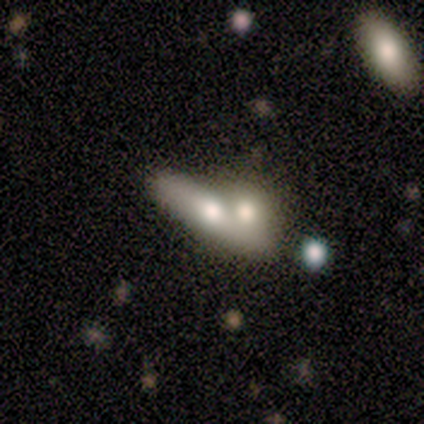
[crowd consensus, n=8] Smooth or featured?
  - smooth: 88% *
  - featured or disk: 12%
  - star or artifact: 0%
How rounded?
  - cigar-shaped: 71% *
  - in between: 29%
  - round: 0%
Merging?
  - merger: 50% *
  - none: 38%
  - minor disturbance: 12%
  - major disturbance: 0%